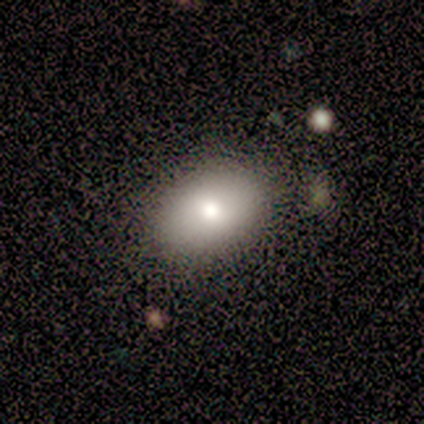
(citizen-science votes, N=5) A smooth galaxy with no disk features (100%) that is in between round and cigar-shaped (80%). Merging: none (60%).